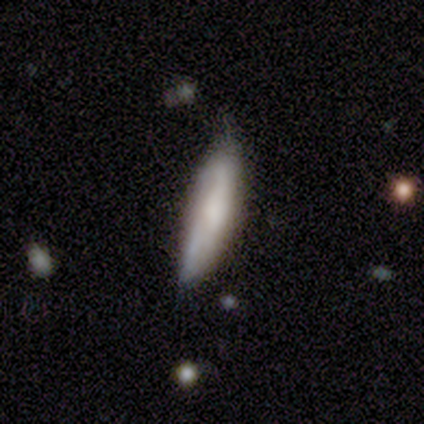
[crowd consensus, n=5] smooth 60%, featured or disk 20%, star or artifact 20%. Down the decision tree: how rounded — cigar-shaped (67%); merging — none (100%).